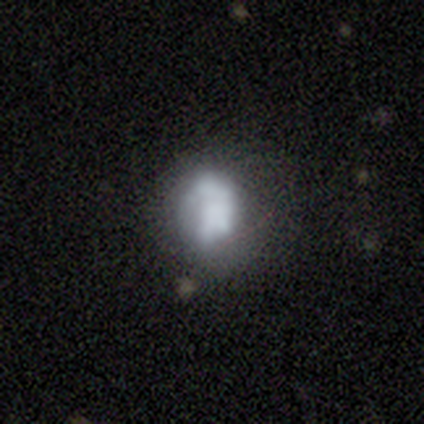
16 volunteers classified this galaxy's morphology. Overall: smooth (62%; featured or disk 25%). How rounded: in between (50%; round 40%). Merging: minor disturbance (43%; none 29%).